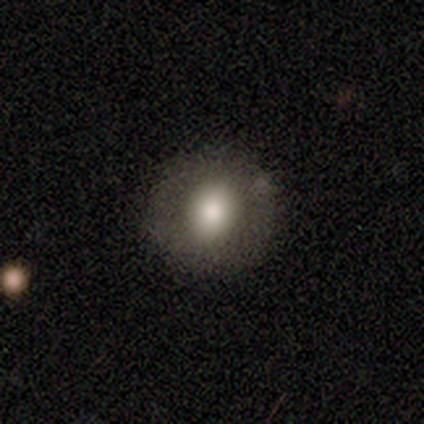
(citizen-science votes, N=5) Smooth or featured?
  - smooth: 80% *
  - featured or disk: 20%
  - star or artifact: 0%
How rounded?
  - round: 100% *
  - in between: 0%
  - cigar-shaped: 0%
Merging?
  - none: 80% *
  - minor disturbance: 20%
  - major disturbance: 0%
  - merger: 0%